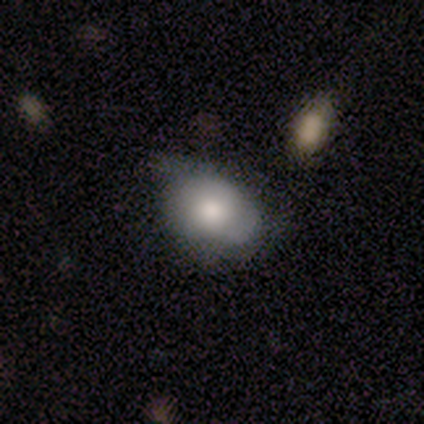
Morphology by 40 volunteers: A smooth galaxy with no disk features (80%) that is in between round and cigar-shaped (69%).

Vote fractions:
- Smooth or featured? smooth: 80% / featured or disk: 18% / star or artifact: 2%
- How rounded? in between: 69% / round: 31% / cigar-shaped: 0%
- Merging? none: 28% (tied) / minor disturbance: 28% (tied) / major disturbance: 8% / merger: 5%